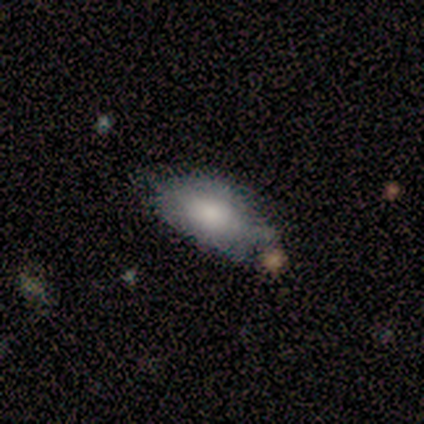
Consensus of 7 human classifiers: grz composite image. It shows a smooth galaxy with no disk features (100%) that is in between round and cigar-shaped (100%). Merging: none (43%, tied with minor disturbance).